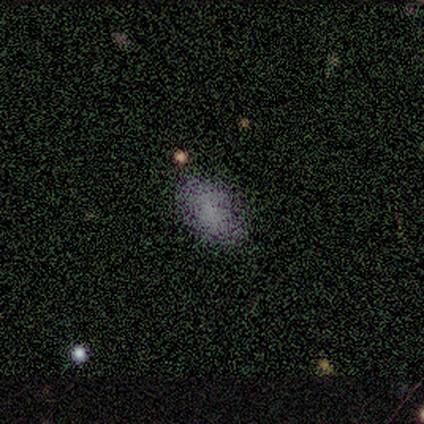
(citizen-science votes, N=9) Smooth or featured? smooth (89%)
How rounded? in between (88%)
Merging? none (75%)